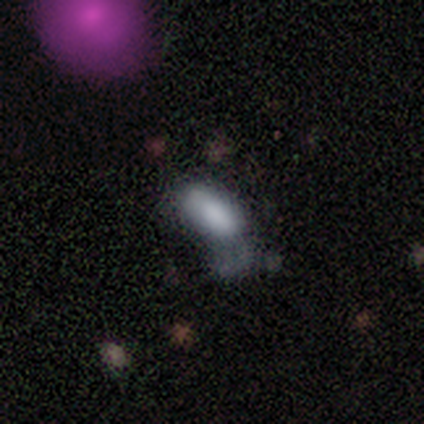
Morphology: type=smooth (70%); roundness=in between (86%); merging=major disturbance (47%).